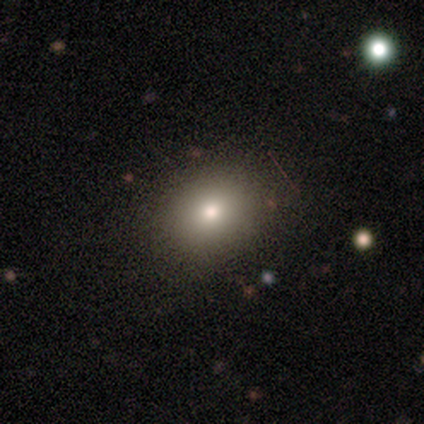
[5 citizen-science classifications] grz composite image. It shows a smooth galaxy with no disk features (100%) that is in between round and cigar-shaped (60%). Merging: none (80%).